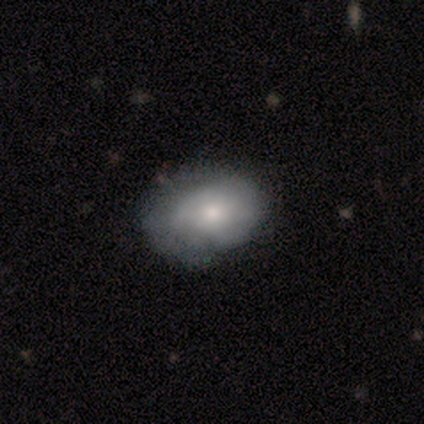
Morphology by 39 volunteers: A featured or disk galaxy (56%) with no bar (80%), 1 (50%) tight (50%) spiral arms (60%) and a moderate central bulge (50%).

Vote fractions:
- Smooth or featured? featured or disk: 56% / smooth: 41% / star or artifact: 3%
- Edge-on disk? no: 91% / yes: 9%
- Bar? no: 80% / weak: 20% / strong: 0%
- Spiral arms? yes: 60% / no: 40%
- Spiral winding? tight: 50% / medium: 42% / loose: 8%
- Spiral arm count? 1: 50% / can't tell: 42% / 2: 8% / 3: 0% / 4: 0% / more than 4: 0%
- Bulge size? moderate: 50% / small: 35% / large: 10% / dominant: 5% / none: 0%
- Merging? none: 53% / minor disturbance: 21% / major disturbance: 8% / merger: 0%